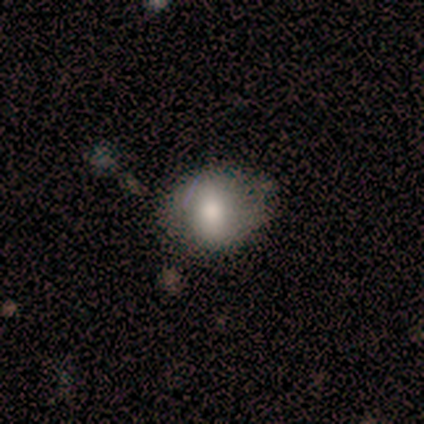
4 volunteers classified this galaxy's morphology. This is clearly a smooth galaxy (100%). How rounded: possibly round (50%, tied with in between). Merging: likely none (75%).